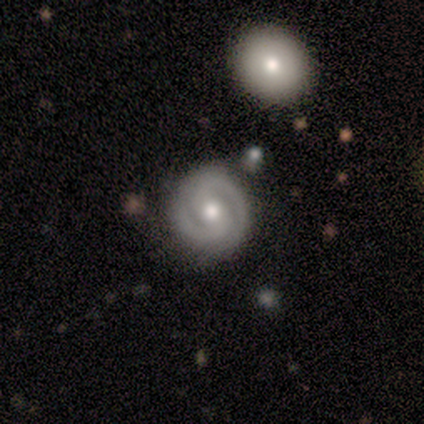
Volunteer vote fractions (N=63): Q: Smooth or featured?
A: featured or disk (84%); runner-up: smooth (10%)
Q: Edge-on disk?
A: no (94%); runner-up: yes (6%)
Q: Bar?
A: weak (40%); runner-up: no (36%)
Q: Spiral arms?
A: yes (96%); runner-up: no (4%)
Q: Spiral winding?
A: tight (62%); runner-up: medium (33%)
Q: Spiral arm count?
A: 2 (96%); runner-up: 1 (2%)
Q: Bulge size?
A: moderate (76%); runner-up: large (12%)
Q: Merging?
A: none (71%); runner-up: minor disturbance (15%)